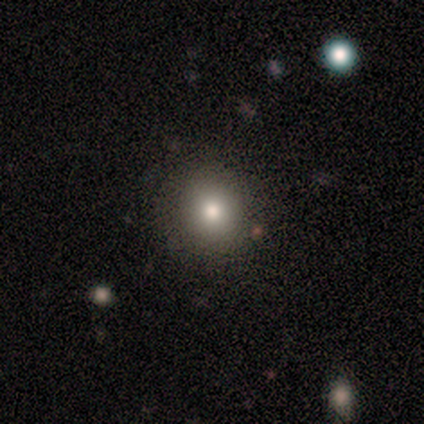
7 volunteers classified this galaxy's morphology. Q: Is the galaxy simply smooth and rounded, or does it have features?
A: smooth — 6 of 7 (86%).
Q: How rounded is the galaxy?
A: round — 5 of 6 (83%).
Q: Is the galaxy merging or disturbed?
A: none — 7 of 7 (100%).